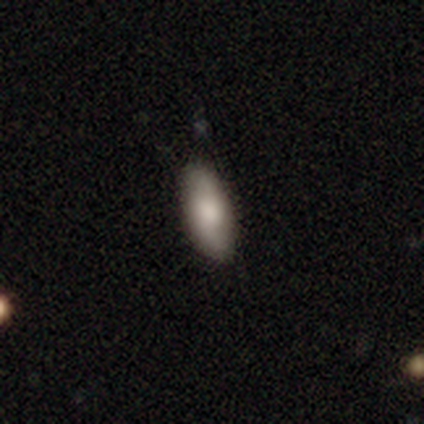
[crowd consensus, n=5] Smooth or featured? smooth (80%)
How rounded? in between (100%)
Merging? none (80%)